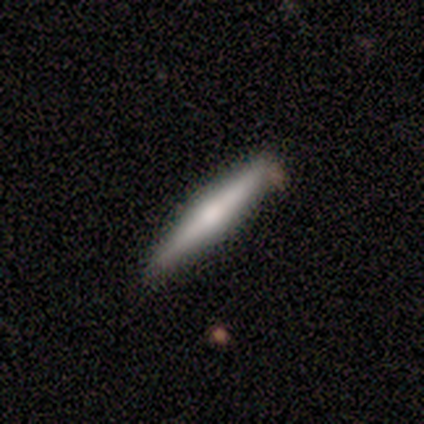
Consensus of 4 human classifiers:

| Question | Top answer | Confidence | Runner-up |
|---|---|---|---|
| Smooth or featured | featured or disk | 75% | smooth (25%) |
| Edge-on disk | yes | 100% | — |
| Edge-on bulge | rounded | 67% | boxy (33%) |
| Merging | none | 75% | merger (25%) |